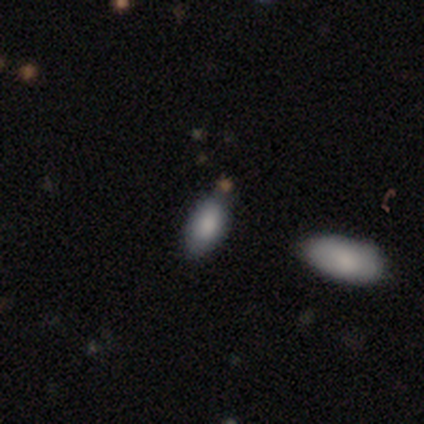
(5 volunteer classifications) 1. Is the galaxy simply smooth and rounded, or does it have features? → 60% smooth, 40% star or artifact, 0% featured or disk.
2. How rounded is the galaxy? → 100% in between, 0% round, 0% cigar-shaped.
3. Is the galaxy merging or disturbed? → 67% none, 33% minor disturbance, 0% major disturbance, 0% merger.